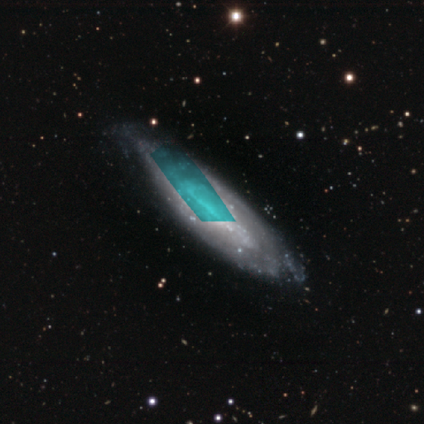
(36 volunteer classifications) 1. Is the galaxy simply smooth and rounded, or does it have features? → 78% featured or disk, 14% star or artifact, 8% smooth.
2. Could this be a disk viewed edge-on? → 82% no, 18% yes.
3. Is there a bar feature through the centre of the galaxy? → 43% no, 39% strong, 17% weak.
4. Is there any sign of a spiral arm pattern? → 52% yes, 48% no.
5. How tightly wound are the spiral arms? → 75% tight, 17% medium, 8% loose.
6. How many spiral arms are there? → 75% can't tell, 17% 2, 8% 1, 0% 3, 0% 4, 0% more than 4.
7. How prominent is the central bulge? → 43% none, 30% small, 22% moderate, 4% large, 0% dominant.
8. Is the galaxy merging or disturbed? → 45% minor disturbance, 42% none, 10% major disturbance, 3% merger.